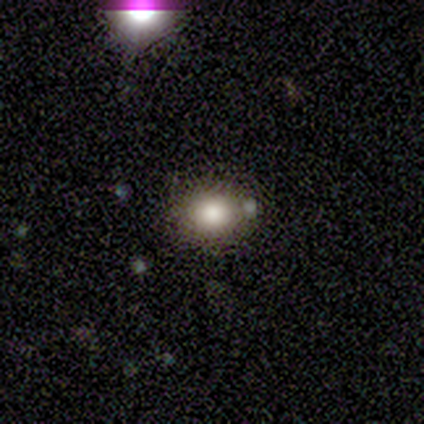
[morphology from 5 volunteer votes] Smooth or featured? smooth (100%)
How rounded? round (60%)
Merging? none (60%)